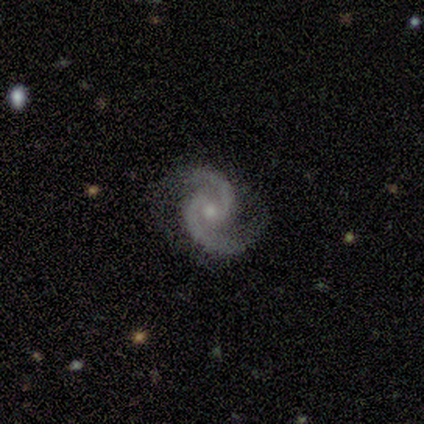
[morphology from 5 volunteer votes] This is clearly a featured or disk galaxy (100%). It is clearly not viewed edge-on (100%). Bar: likely weak (60%). Spiral arm pattern: clearly yes (100%). Spiral arm count: clearly 2 (100%). Spiral winding: likely medium (60%). Central bulge: likely small (60%). Merging: clearly none (80%).